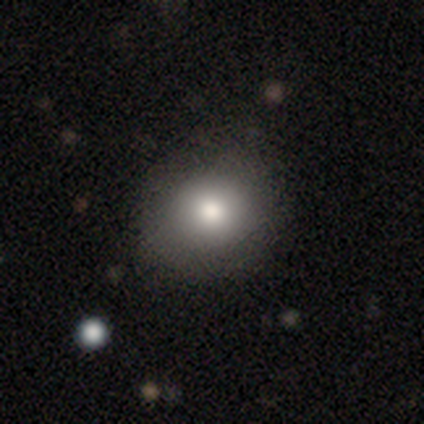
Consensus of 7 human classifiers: Volunteers were most divided on "how rounded": round: 67%, in between: 33%, cigar-shaped: 0%. More confident: merging — none (100%); smooth or featured — smooth (86%).